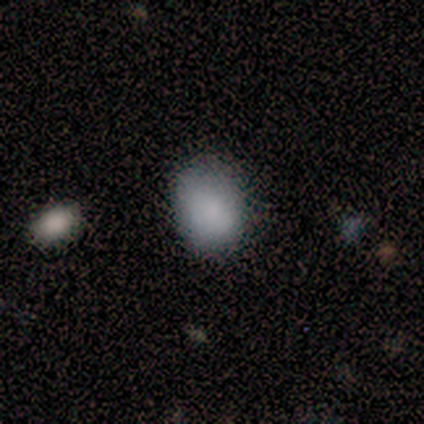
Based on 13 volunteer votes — Volunteers were most divided on "merging": none: 64%, minor disturbance: 27%, major disturbance: 9%, merger: 0%. More confident: smooth or featured — smooth (77%); how rounded — in between (70%).